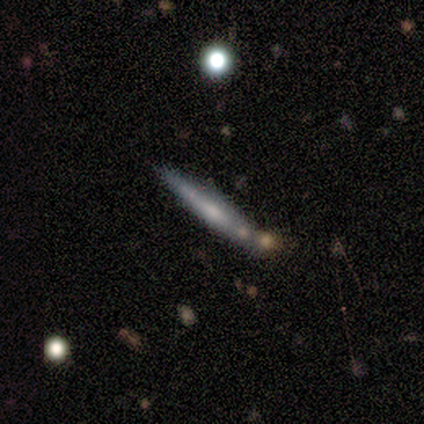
Q: Smooth or featured?
A: featured or disk (67%); runner-up: smooth (33%)
Q: Edge-on disk?
A: yes (50%); tied with: no (50%)
Q: Edge-on bulge?
A: none (100%)
Q: Merging?
A: merger (67%); runner-up: none (33%)